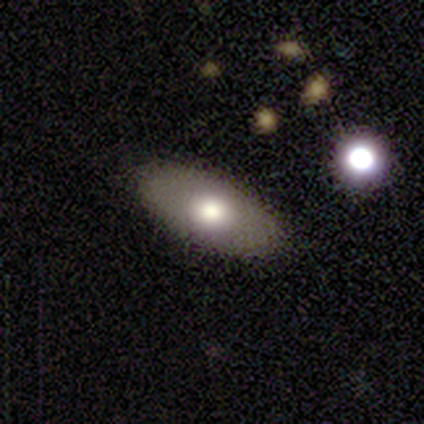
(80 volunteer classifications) Smooth or featured?
  - smooth: 79% *
  - featured or disk: 16%
  - star or artifact: 5%
How rounded?
  - in between: 97% *
  - cigar-shaped: 3%
  - round: 0%
Merging?
  - none: 46% *
  - minor disturbance: 5%
  - merger: 4%
  - major disturbance: 0%